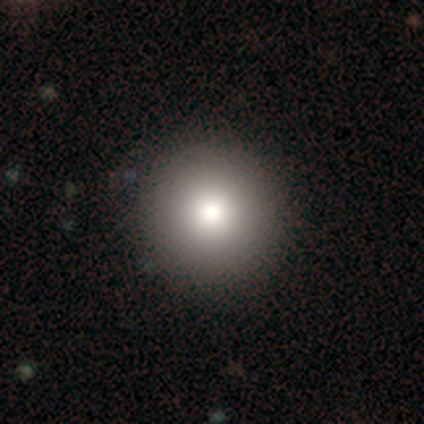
Smooth or featured? 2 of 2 (100%) said smooth. How rounded? 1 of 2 (50%, tied with in between) said round. Merging? 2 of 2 (100%) said none.